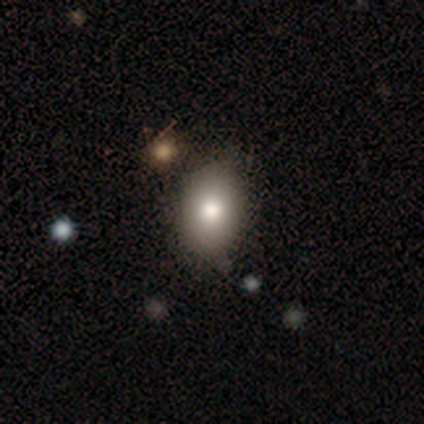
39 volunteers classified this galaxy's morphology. smooth 77%, featured or disk 13%, star or artifact 10%. Down the decision tree: how rounded — in between (93%); merging — none (54%).